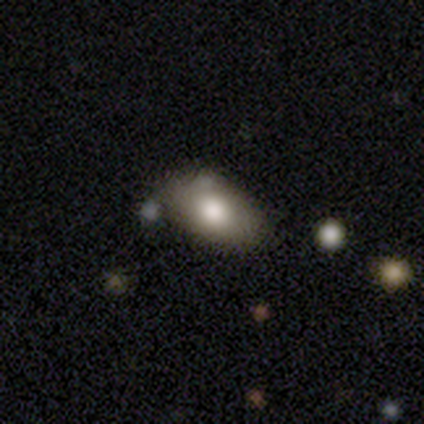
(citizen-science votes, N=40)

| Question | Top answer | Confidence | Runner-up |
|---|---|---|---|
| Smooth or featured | smooth | 72% | featured or disk (20%) |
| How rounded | in between | 86% | round (10%) |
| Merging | none | 76% | merger (14%) |